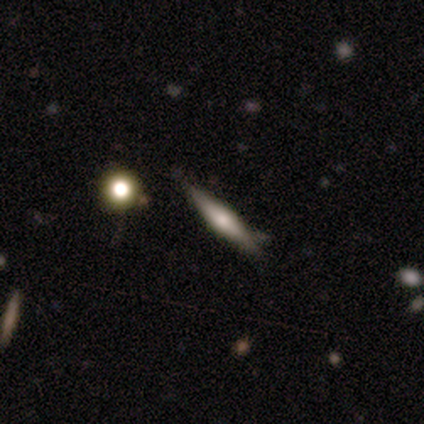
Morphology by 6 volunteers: Smooth or featured? smooth (50%)
How rounded? cigar-shaped (100%)
Merging? none (100%)